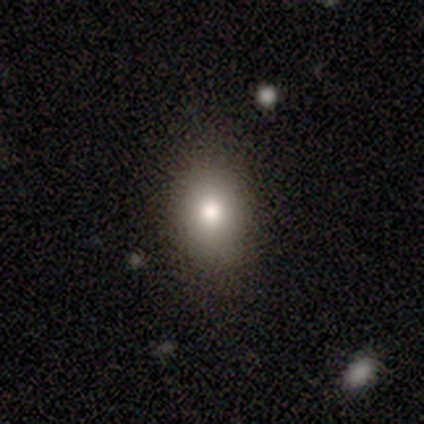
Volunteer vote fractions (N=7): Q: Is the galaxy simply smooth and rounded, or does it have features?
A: smooth — 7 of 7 (100%).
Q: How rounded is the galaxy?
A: in between — 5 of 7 (71%).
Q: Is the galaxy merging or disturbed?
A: none — 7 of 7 (100%).